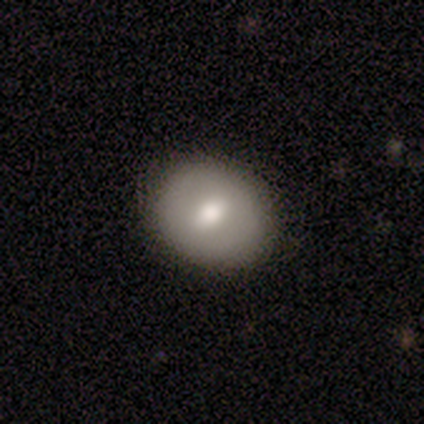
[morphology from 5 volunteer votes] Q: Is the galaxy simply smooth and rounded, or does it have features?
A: smooth — 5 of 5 (100%).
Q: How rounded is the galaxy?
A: round — 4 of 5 (80%).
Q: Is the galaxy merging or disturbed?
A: none — 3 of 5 (60%).